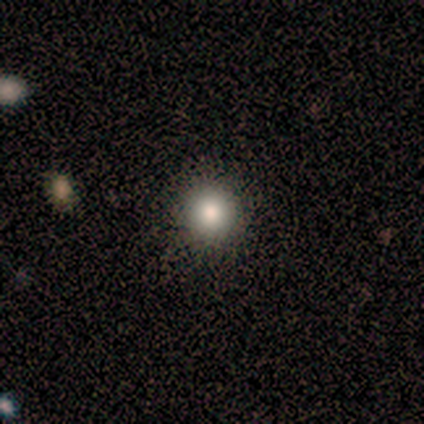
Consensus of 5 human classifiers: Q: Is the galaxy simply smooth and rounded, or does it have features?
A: smooth — 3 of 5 (60%).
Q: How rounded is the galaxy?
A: round — 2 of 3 (67%).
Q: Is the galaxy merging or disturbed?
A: none — 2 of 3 (67%).